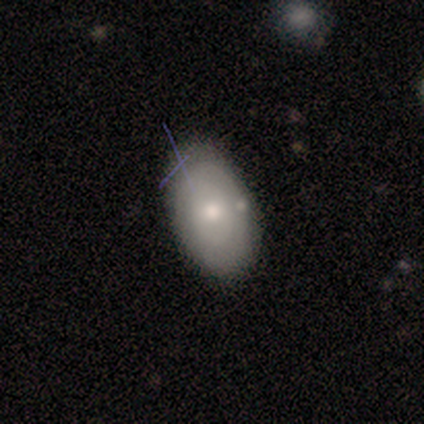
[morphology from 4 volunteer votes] Overall: smooth (50%, tied with featured or disk). How rounded: round (50%, tied with in between). Merging: minor disturbance (100%).